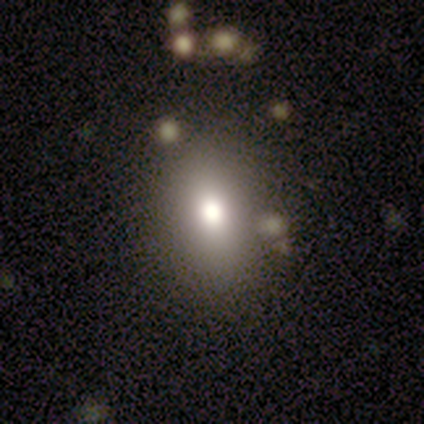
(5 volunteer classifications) A smooth galaxy with no disk features (80%) that is in between round and cigar-shaped (75%).

Vote fractions:
- Smooth or featured? smooth: 80% / featured or disk: 20% / star or artifact: 0%
- How rounded? in between: 75% / round: 25% / cigar-shaped: 0%
- Merging? none: 100% / minor disturbance: 0% / major disturbance: 0% / merger: 0%